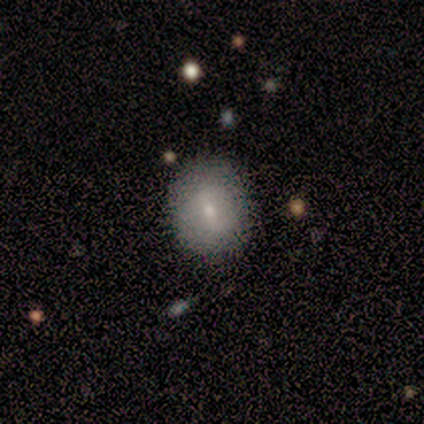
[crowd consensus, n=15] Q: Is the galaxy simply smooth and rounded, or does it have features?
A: smooth — 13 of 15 (87%).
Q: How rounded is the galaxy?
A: round — 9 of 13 (69%).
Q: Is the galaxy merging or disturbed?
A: none — 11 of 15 (73%).